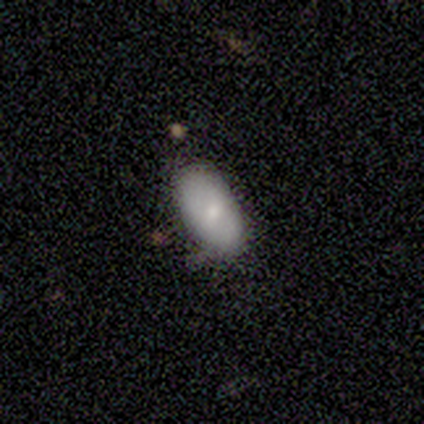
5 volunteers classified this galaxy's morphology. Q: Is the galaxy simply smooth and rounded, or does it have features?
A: smooth — 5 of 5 (100%).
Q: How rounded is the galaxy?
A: in between — 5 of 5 (100%).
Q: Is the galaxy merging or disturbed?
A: none — 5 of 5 (100%).